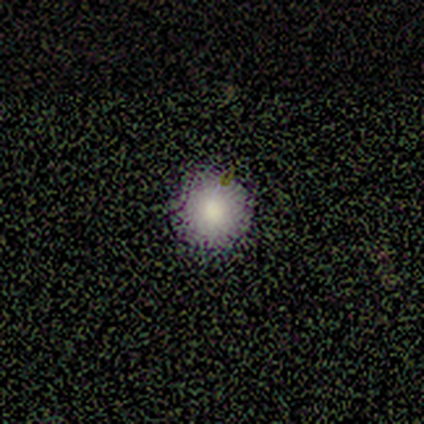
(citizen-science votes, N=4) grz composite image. It shows a smooth galaxy with no disk features (100%) that is round (100%). Merging: none (100%).